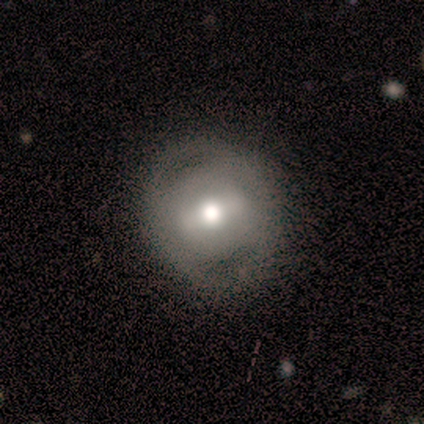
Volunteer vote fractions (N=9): featured or disk 78%, smooth 22%, star or artifact 0%. Down the decision tree: edge-on disk — no (100%); bar — weak (57%); spiral arms — no (100%); bulge size — moderate (86%); merging — none (67%).